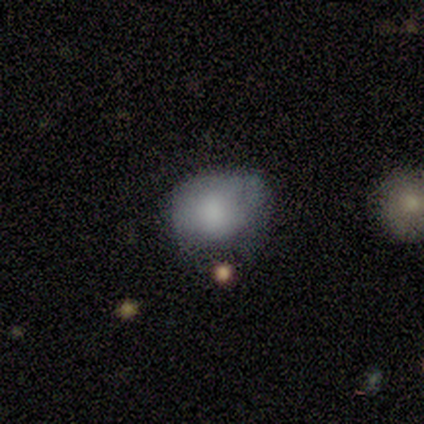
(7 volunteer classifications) Morphology: type=smooth (100%); roundness=round (71%); merging=none (71%).